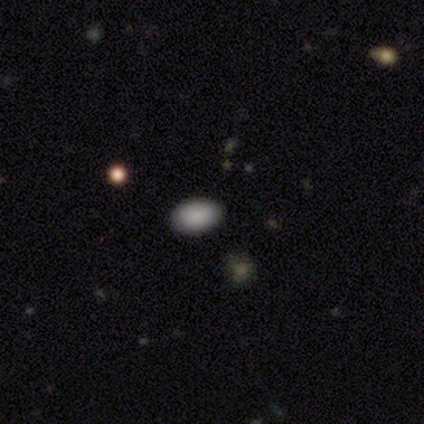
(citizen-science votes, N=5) smooth-or-featured: smooth: 100% | featured or disk: 0% | star or artifact: 0%
  how-rounded: in between: 100% | round: 0% | cigar-shaped: 0%
  merging: none: 100% | minor disturbance: 0% | major disturbance: 0% | merger: 0%